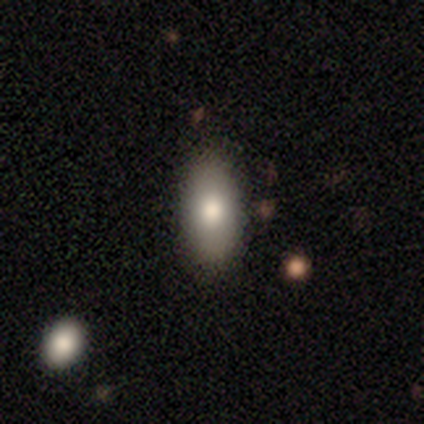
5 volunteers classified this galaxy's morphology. Smooth or featured? 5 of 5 (100%) said smooth. How rounded? 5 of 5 (100%) said in between. Merging? 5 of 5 (100%) said none.